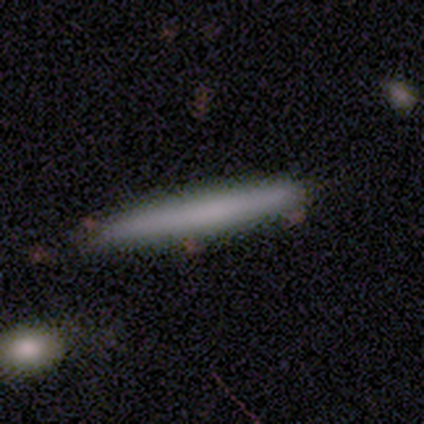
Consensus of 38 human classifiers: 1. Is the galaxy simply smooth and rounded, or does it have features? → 66% smooth, 32% featured or disk, 3% star or artifact.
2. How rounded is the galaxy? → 100% cigar-shaped, 0% round, 0% in between.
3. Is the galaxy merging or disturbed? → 86% none, 14% minor disturbance, 0% major disturbance, 0% merger.